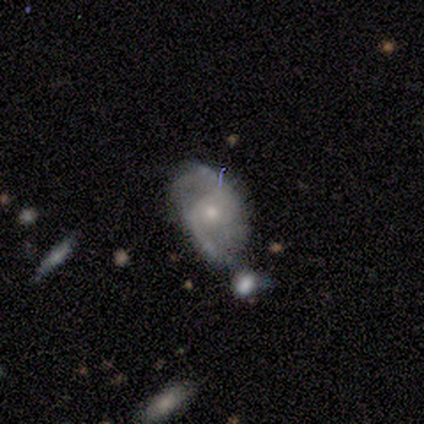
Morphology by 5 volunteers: Smooth or featured: featured or disk — 100%
Edge-on disk: no — 100%
Bar: no — 80% (weak — 20%)
Spiral arms: yes — 100%
Spiral winding: loose — 60% (medium — 40%)
Spiral arm count: 2 — 100%
Bulge size: small — 80% (moderate — 20%)
Merging: none — 80% (minor disturbance — 20%)